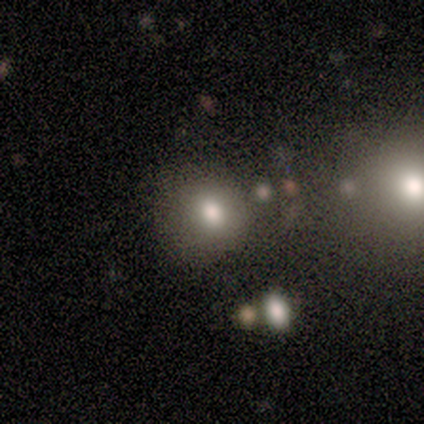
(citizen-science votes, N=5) Morphology: type=smooth (80%); roundness=round (50%, tied with in between); merging=none (100%).